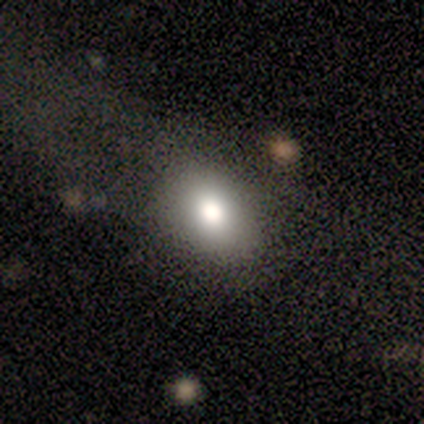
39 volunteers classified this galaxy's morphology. Volunteers were most divided on "merging": none: 33%, major disturbance: 18%, minor disturbance: 13%, merger: 3%. More confident: smooth or featured — smooth (82%); how rounded — in between (69%).